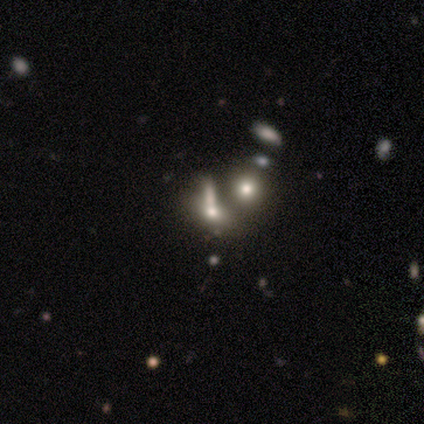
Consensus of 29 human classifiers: A smooth galaxy with no disk features (45%) that is in between round and cigar-shaped (54%).

Vote fractions:
- Smooth or featured? smooth: 45% / star or artifact: 34% / featured or disk: 21%
- How rounded? in between: 54% / round: 31% / cigar-shaped: 15%
- Merging? merger: 53% / none: 16% / minor disturbance: 16% / major disturbance: 16%